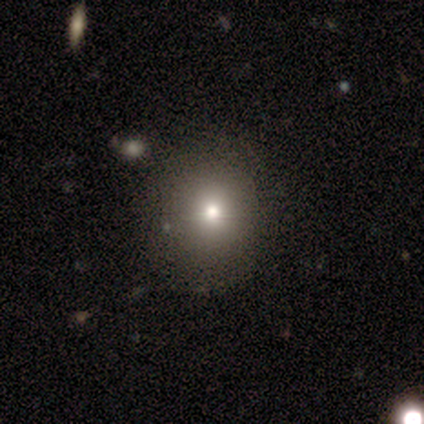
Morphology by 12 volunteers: This is possibly a smooth galaxy (50%). How rounded: clearly round (83%). Merging: possibly none (57%).